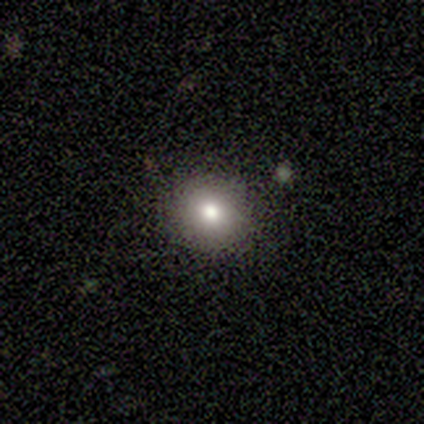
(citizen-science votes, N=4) Smooth or featured? 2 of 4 (50%, tied with featured or disk) said smooth. How rounded? 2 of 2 (100%) said round. Merging? 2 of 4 (50%) said none.